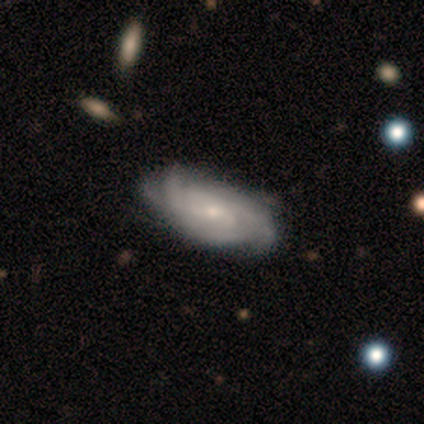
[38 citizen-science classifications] A featured or disk galaxy (89%) with no bar (73%), tight (58%) spiral arms (94%) and a small central bulge (61%).

Vote fractions:
- Smooth or featured? featured or disk: 89% / smooth: 11% / star or artifact: 0%
- Edge-on disk? no: 97% / yes: 3%
- Bar? no: 73% / weak: 27% / strong: 0%
- Spiral arms? yes: 94% / no: 6%
- Spiral winding? tight: 58% / medium: 39% / loose: 3%
- Spiral arm count? can't tell: 45% / 2: 23% / 3: 16% / 4: 16% / 1: 0% / more than 4: 0%
- Bulge size? small: 61% / moderate: 33% / none: 6% / dominant: 0% / large: 0%
- Merging? none: 50% / minor disturbance: 18% / merger: 5% / major disturbance: 3%